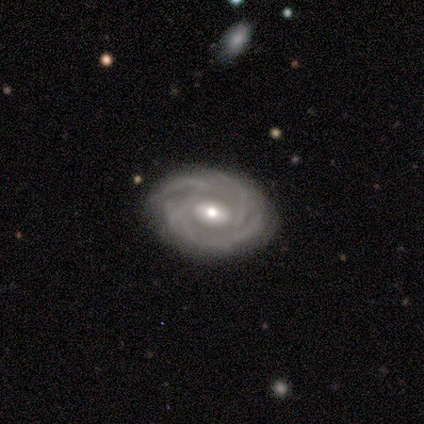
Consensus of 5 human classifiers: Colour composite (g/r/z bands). It shows a featured or disk galaxy (80%) with a weak bar (75%), tight (100%) spiral arms (100%) and a moderate central bulge (50%). Merging: none (60%).